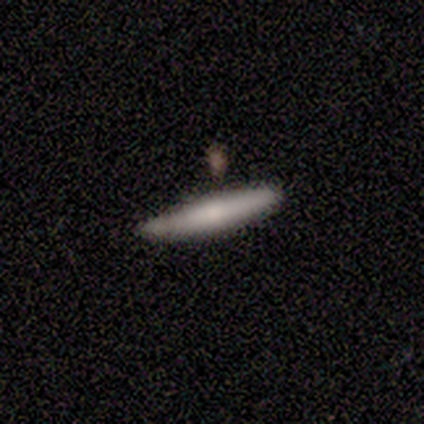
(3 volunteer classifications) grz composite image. It shows a smooth galaxy with no disk features (100%) that is cigar-shaped (100%). Merging: none (100%).